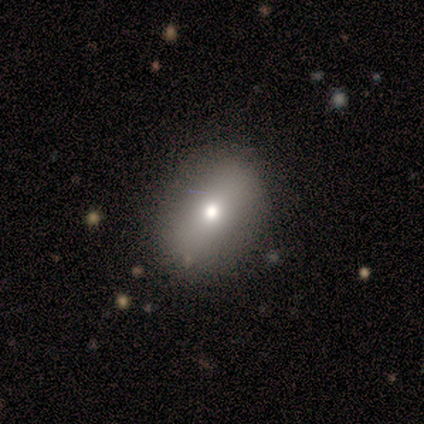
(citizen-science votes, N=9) This appears to be a smooth galaxy with no disk features (67%) that is in between round and cigar-shaped (100%). Merging: none (88%).